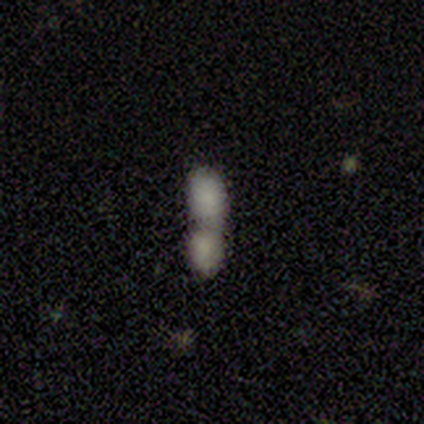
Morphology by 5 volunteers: A smooth galaxy with no disk features (100%) that is in between round and cigar-shaped (100%).

Vote fractions:
- Smooth or featured? smooth: 100% / featured or disk: 0% / star or artifact: 0%
- How rounded? in between: 100% / round: 0% / cigar-shaped: 0%
- Merging? merger: 100% / none: 0% / minor disturbance: 0% / major disturbance: 0%